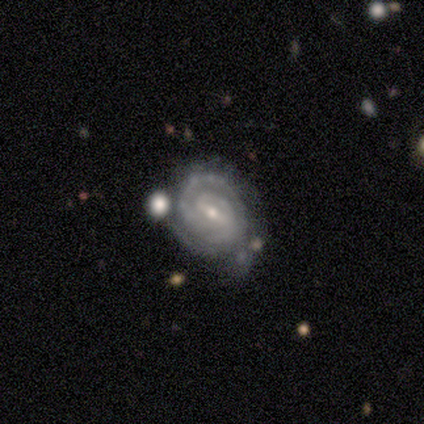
Smooth or featured: featured or disk — 100%
Edge-on disk: no — 100%
Bar: weak — 60% (strong — 20%)
Spiral arms: yes — 100%
Spiral winding: tight — 80% (medium — 20%)
Spiral arm count: 2 — 60% (3 — 20%)
Bulge size: small — 60% (moderate — 40%)
Merging: merger — 60% (none — 20%)